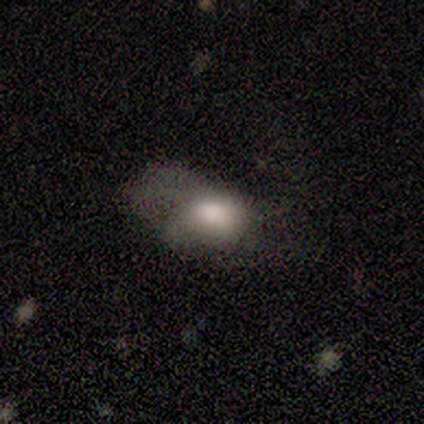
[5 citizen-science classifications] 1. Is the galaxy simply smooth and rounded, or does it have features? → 60% smooth, 40% featured or disk, 0% star or artifact.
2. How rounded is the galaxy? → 67% in between, 33% round, 0% cigar-shaped.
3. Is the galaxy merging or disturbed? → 60% major disturbance, 20% minor disturbance, 20% merger, 0% none.